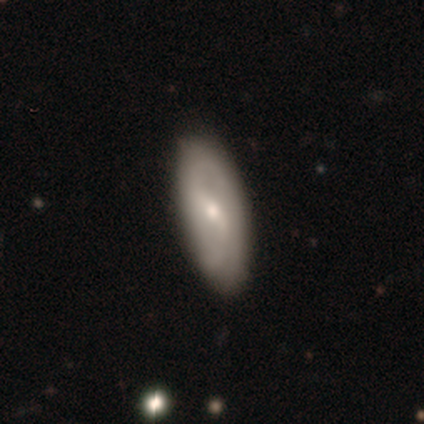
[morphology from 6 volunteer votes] smooth 67%, featured or disk 33%, star or artifact 0%. Down the decision tree: how rounded — in between (100%); merging — none (100%).